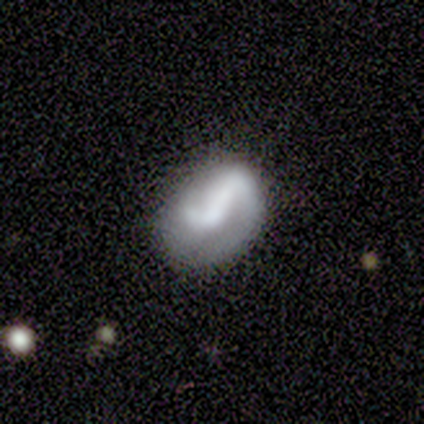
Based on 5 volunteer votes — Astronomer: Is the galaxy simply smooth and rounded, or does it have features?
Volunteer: smooth — 60%.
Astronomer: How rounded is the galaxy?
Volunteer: in between — 100%.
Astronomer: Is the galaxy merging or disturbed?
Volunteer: none — 75%.